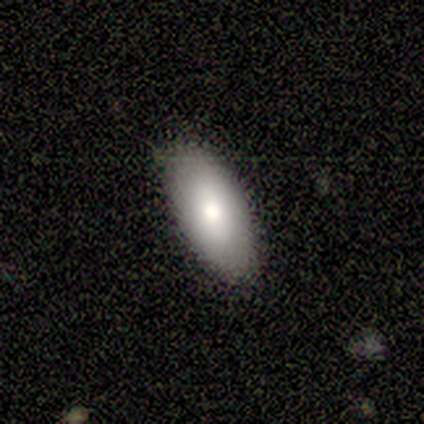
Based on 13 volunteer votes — This is likely a smooth galaxy (77%). How rounded: clearly in between (100%). Merging: clearly none (83%).